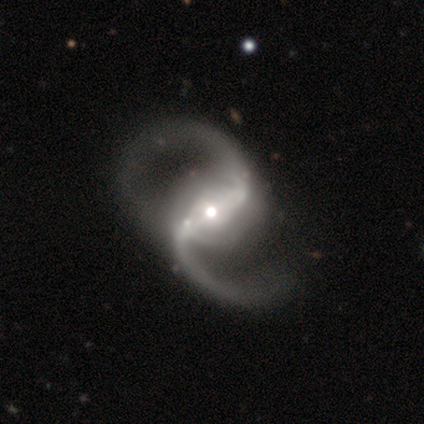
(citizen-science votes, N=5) A featured or disk galaxy (100%) with a strong bar (60%), 2 (100%) loose (100%) spiral arms (100%) and a moderate central bulge (80%). Merging: none (40%).